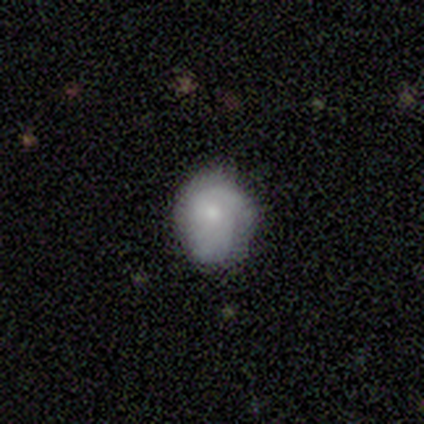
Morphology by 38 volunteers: Smooth or featured? smooth (58%)
How rounded? round (55%)
Merging? none (46%, tied with minor disturbance)